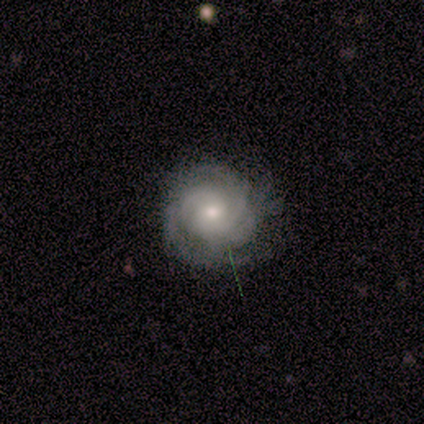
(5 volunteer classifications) Smooth or featured?
  - featured or disk: 80% *
  - smooth: 20%
  - star or artifact: 0%
Edge-on disk?
  - no: 75% *
  - yes: 25%
Bar?
  - no: 67% *
  - weak: 33%
  - strong: 0%
Spiral arms?
  - yes: 100% *
  - no: 0%
Spiral winding?
  - tight: 67% *
  - medium: 33%
  - loose: 0%
Spiral arm count?
  - can't tell: 67% *
  - 3: 33%
  - 1: 0%
  - 2: 0%
  - 4: 0%
  - more than 4: 0%
Bulge size?
  - moderate: 67% *
  - small: 33%
  - dominant: 0%
  - large: 0%
  - none: 0%
Merging?
  - none: 40% * (tied)
  - major disturbance: 40% * (tied)
  - minor disturbance: 20%
  - merger: 0%